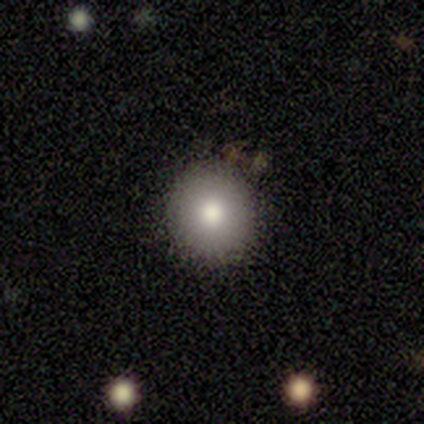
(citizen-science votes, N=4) A smooth galaxy with no disk features (100%) that is round (100%).

Vote fractions:
- Smooth or featured? smooth: 100% / featured or disk: 0% / star or artifact: 0%
- How rounded? round: 100% / in between: 0% / cigar-shaped: 0%
- Merging? none: 50% (tied) / minor disturbance: 50% (tied) / major disturbance: 0% / merger: 0%